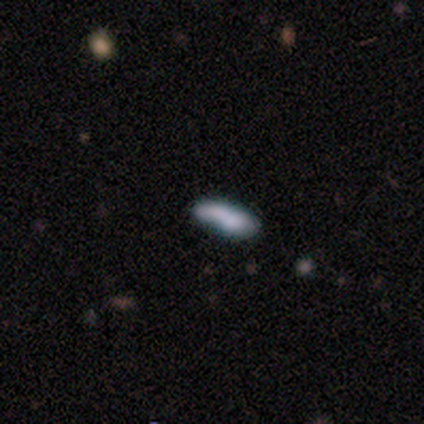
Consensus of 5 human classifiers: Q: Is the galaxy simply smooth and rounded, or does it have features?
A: smooth — 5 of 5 (100%).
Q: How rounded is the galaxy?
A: in between — 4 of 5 (80%).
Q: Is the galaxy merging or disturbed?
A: none — 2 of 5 (40%, tied with minor disturbance).